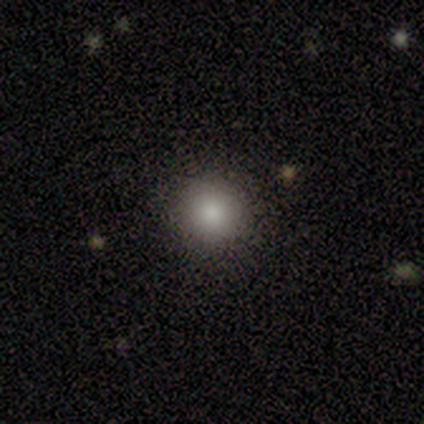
Volunteers were most divided on "merging": none: 75%, major disturbance: 25%, minor disturbance: 0%, merger: 0%. More confident: smooth or featured — smooth (100%); how rounded — round (100%).